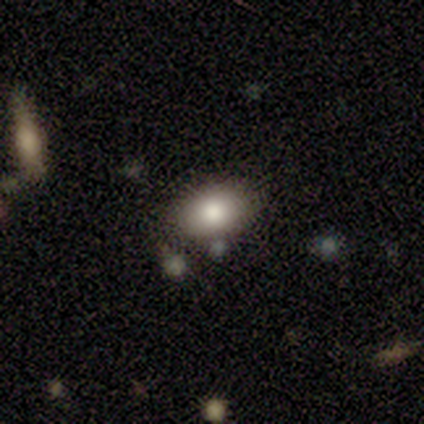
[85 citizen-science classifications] Smooth or featured? smooth (79%)
How rounded? in between (88%)
Merging? none (82%)